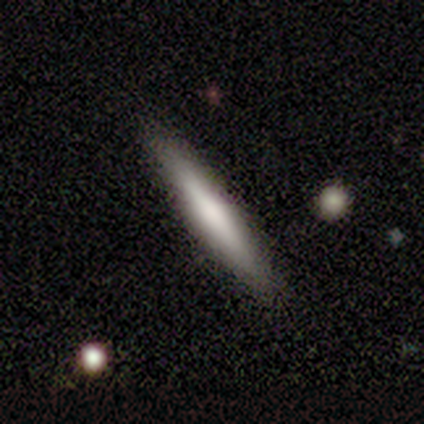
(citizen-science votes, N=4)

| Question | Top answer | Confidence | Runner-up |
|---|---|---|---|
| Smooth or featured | smooth | 100% | — |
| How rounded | cigar-shaped | 100% | — |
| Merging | none | 100% | — |